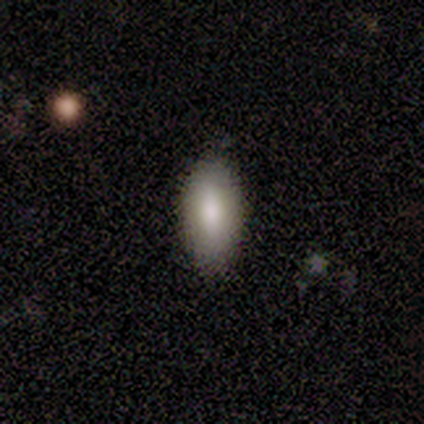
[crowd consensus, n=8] Smooth or featured? 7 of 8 (88%) said smooth. How rounded? 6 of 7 (86%) said in between. Merging? 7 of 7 (100%) said none.